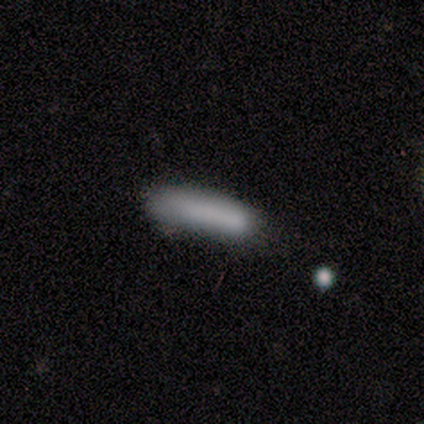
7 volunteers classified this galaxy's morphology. Q: Smooth or featured?
A: smooth (100%)
Q: How rounded?
A: cigar-shaped (71%); runner-up: in between (29%)
Q: Merging?
A: none (57%); runner-up: minor disturbance (29%)